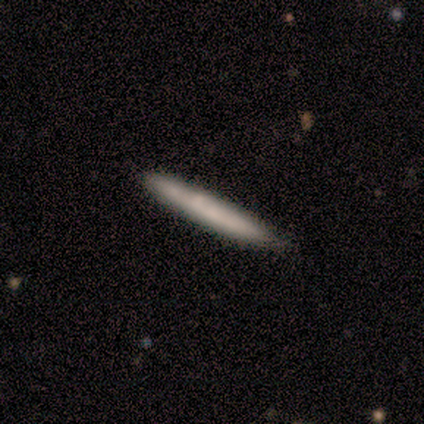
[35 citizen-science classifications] A smooth galaxy with no disk features (71%) that is cigar-shaped (100%). Merging: none (54%).